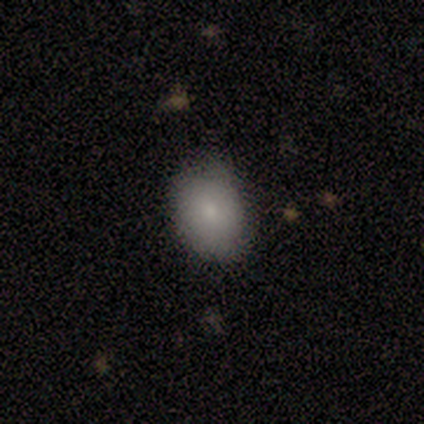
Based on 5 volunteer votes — Overall: smooth (100%). How rounded: round (60%; in between 40%). Merging: none (80%).